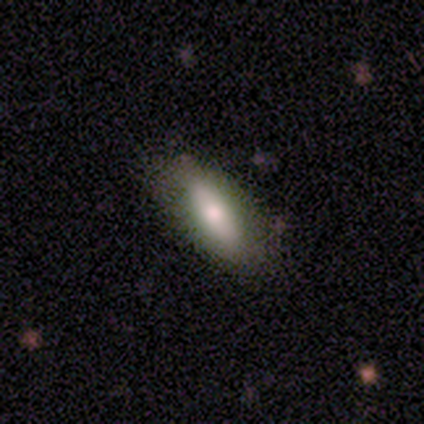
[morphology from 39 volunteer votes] Smooth or featured? smooth (69%)
How rounded? in between (74%)
Merging? none (80%)